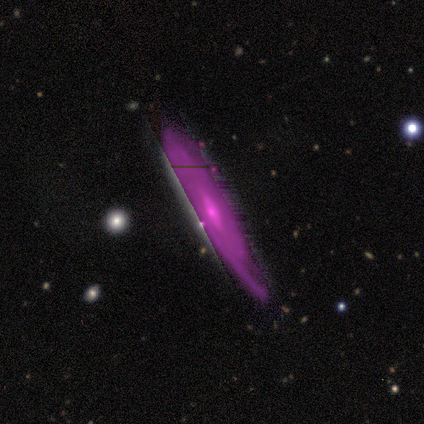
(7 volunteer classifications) This is likely a featured or disk galaxy (71%). It is likely viewed edge-on (60%). Edge-on bulge: likely rounded (67%). Merging: likely none (67%).